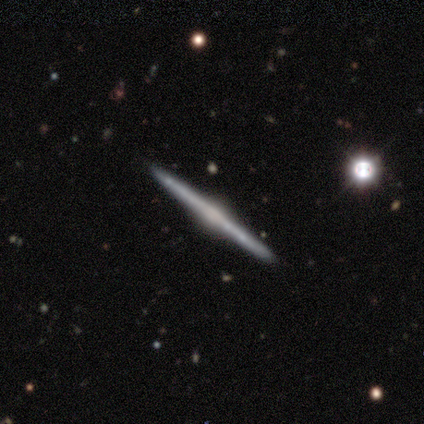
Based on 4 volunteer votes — Morphology: type=featured or disk (75%); edge-on=yes (100%); edge-on bulge=rounded (100%); merging=none (100%).